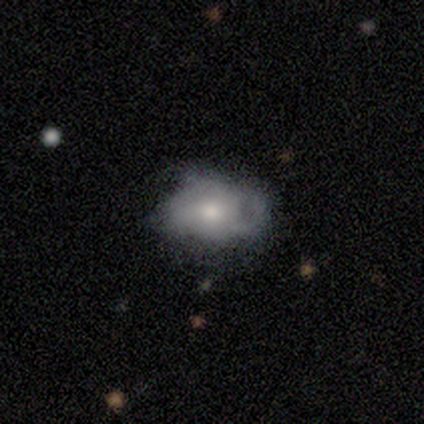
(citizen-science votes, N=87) A smooth galaxy with no disk features (53%) that is in between round and cigar-shaped (91%).

Vote fractions:
- Smooth or featured? smooth: 53% / featured or disk: 43% / star or artifact: 5%
- How rounded? in between: 91% / round: 9% / cigar-shaped: 0%
- Merging? none: 42% / minor disturbance: 39% / major disturbance: 19% / merger: 0%